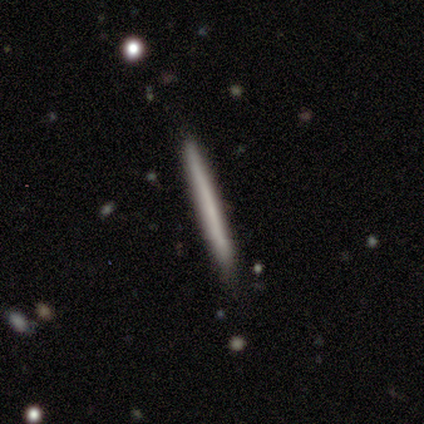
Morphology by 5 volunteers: Q: Smooth or featured?
A: featured or disk (40%); tied with: star or artifact (40%)
Q: Edge-on disk?
A: yes (100%)
Q: Edge-on bulge?
A: none (100%)
Q: Merging?
A: none (67%); runner-up: minor disturbance (33%)